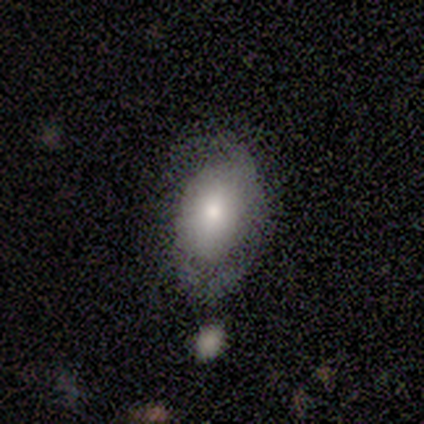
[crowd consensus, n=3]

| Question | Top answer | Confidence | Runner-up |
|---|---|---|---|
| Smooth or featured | featured or disk | 67% | smooth (33%) |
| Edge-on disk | no | 100% | — |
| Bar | no | 100% | — |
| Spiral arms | yes | 50% | tied: no (50%) |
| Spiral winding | tight | 100% | — |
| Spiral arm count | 2 | 100% | — |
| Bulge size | moderate | 100% | — |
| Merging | none | 67% | minor disturbance (33%) |